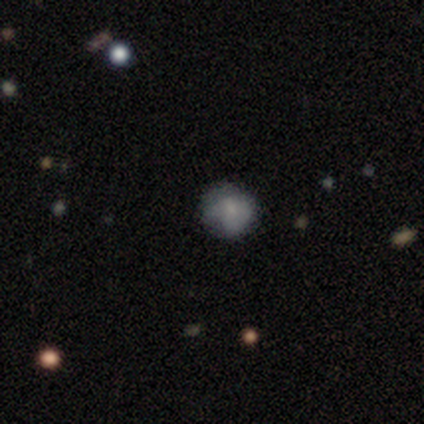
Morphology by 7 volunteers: Smooth or featured: smooth — 71% (star or artifact — 29%)
How rounded: round — 100%
Merging: none — 100%